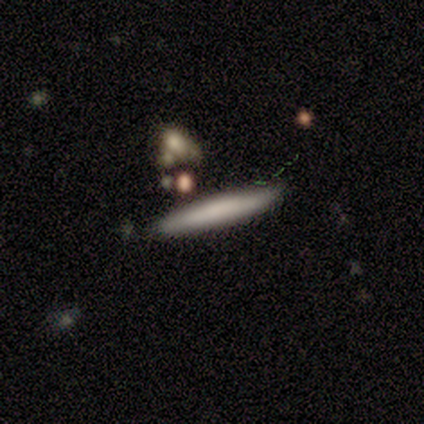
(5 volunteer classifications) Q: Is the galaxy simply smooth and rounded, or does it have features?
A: smooth — 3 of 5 (60%).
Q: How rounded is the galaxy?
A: cigar-shaped — 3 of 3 (100%).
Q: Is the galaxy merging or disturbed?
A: none — 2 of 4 (50%, tied with minor disturbance).